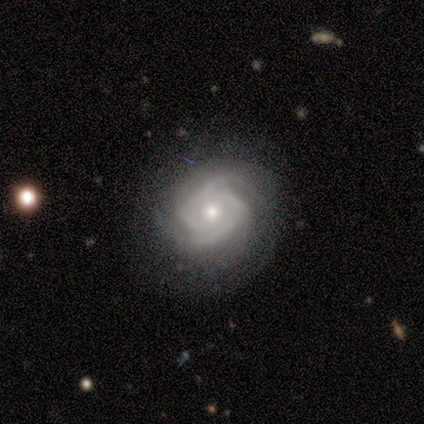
Smooth or featured? 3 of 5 (60%) said featured or disk. Edge-on disk? 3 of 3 (100%) said no. Bar? 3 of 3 (100%) said no. Spiral arms? 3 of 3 (100%) said yes. Spiral winding? 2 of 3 (67%) said tight. Spiral arm count? 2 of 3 (67%) said 2. Bulge size? 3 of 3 (100%) said small. Merging? 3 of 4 (75%) said none.